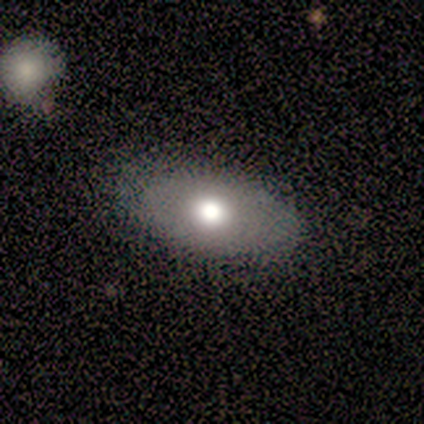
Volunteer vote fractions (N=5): This is clearly a featured or disk galaxy (80%). It is possibly viewed edge-on (50%, tied with no). Edge-on bulge: clearly rounded (100%). Merging: clearly none (80%).